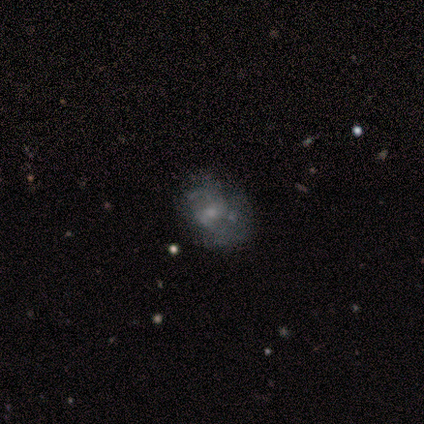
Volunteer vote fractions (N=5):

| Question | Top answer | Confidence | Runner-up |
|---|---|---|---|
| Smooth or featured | featured or disk | 60% | smooth (20%) |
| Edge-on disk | no | 100% | — |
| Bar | no | 67% | weak (33%) |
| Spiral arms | no | 67% | yes (33%) |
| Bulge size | small | 67% | none (33%) |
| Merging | none | 75% | minor disturbance (25%) |